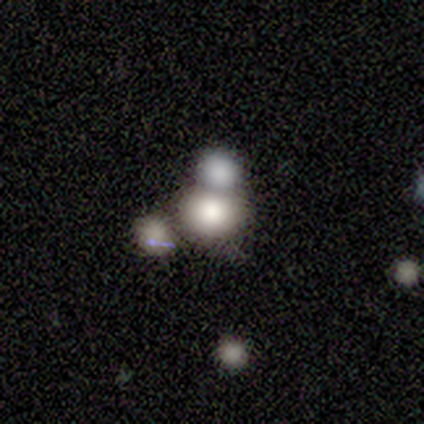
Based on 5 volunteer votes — A smooth galaxy with no disk features (100%) that is round (60%).

Vote fractions:
- Smooth or featured? smooth: 100% / featured or disk: 0% / star or artifact: 0%
- How rounded? round: 60% / in between: 40% / cigar-shaped: 0%
- Merging? none: 40% (tied) / minor disturbance: 40% (tied) / merger: 20% / major disturbance: 0%